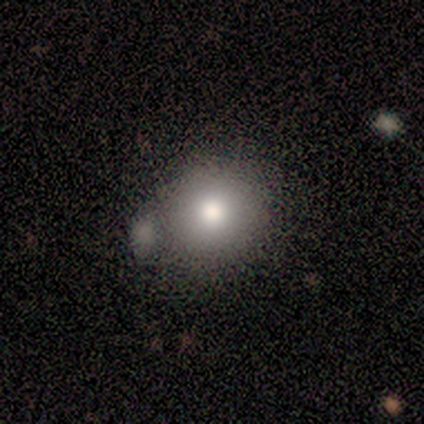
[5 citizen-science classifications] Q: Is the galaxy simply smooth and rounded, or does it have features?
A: smooth — 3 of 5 (60%).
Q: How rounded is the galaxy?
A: round — 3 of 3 (100%).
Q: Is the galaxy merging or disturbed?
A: none — 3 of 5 (60%).